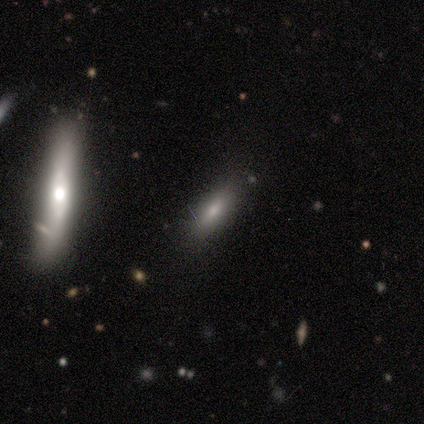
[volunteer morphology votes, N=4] smooth 50%, featured or disk 25%, star or artifact 25%. Down the decision tree: how rounded — in between (50%, tied with cigar-shaped); merging — none (67%).